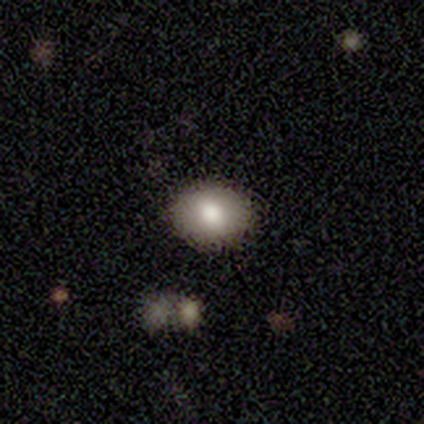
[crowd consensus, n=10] Smooth or featured? smooth (90%)
How rounded? round (56%)
Merging? none (100%)